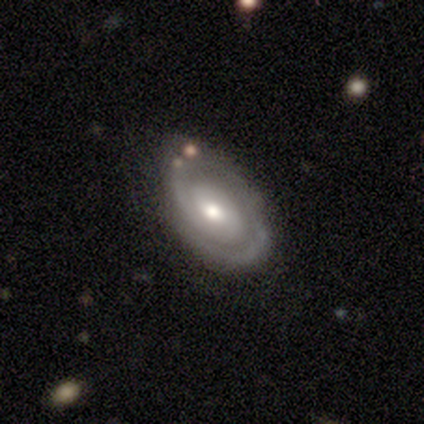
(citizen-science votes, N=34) Volunteers were most divided on "spiral winding": tight: 52%, medium: 44%, loose: 4%. More confident: spiral arms — yes (96%); smooth or featured — featured or disk (88%); edge-on disk — no (87%); bar — no (69%); merging — none (64%); spiral arm count — 2 (56%); bulge size — moderate (50%).